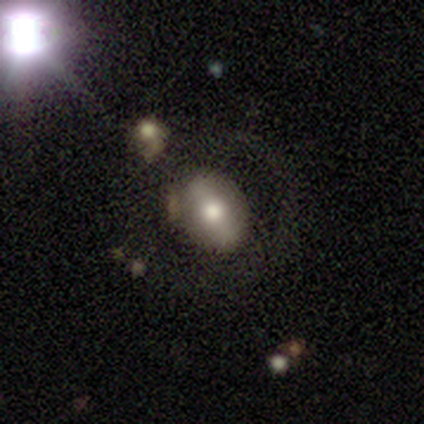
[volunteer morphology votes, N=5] type=featured or disk (60%); edge-on=no (100%); bar=strong (67%); spiral arms=no (100%); bulge=moderate (67%); merging=none (40%, tied with merger).